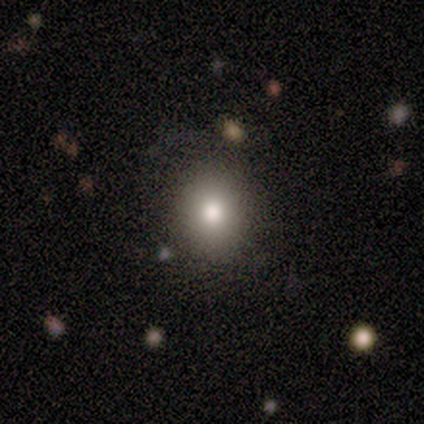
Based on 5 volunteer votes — A smooth galaxy with no disk features (80%) that is round (75%).

Vote fractions:
- Smooth or featured? smooth: 80% / star or artifact: 20% / featured or disk: 0%
- How rounded? round: 75% / in between: 25% / cigar-shaped: 0%
- Merging? none: 100% / minor disturbance: 0% / major disturbance: 0% / merger: 0%